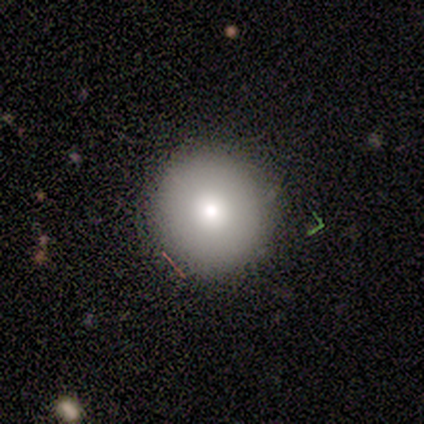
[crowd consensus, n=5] smooth 80%, star or artifact 20%, featured or disk 0%. Down the decision tree: how rounded — round (100%); merging — none (100%).